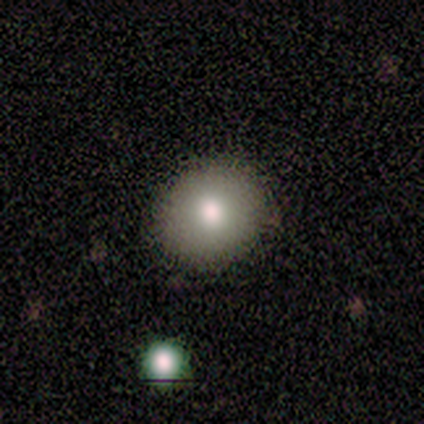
Overall: smooth (80%). How rounded: round (100%). Merging: none (100%).